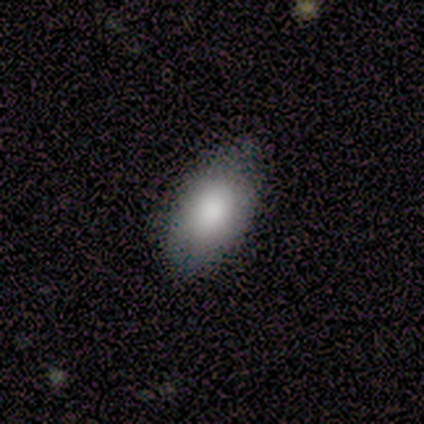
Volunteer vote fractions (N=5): Overall: smooth (100%). How rounded: in between (100%). Merging: none (100%).